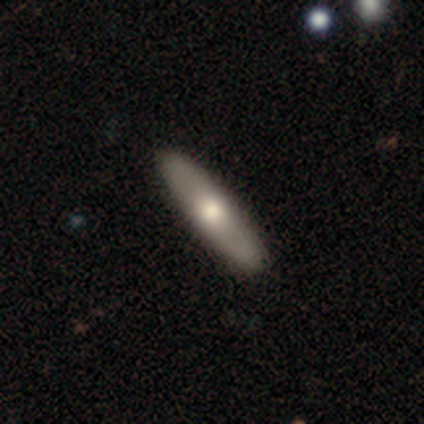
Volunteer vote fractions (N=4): A smooth galaxy with no disk features (100%) that is cigar-shaped (100%). Merging: none (100%).